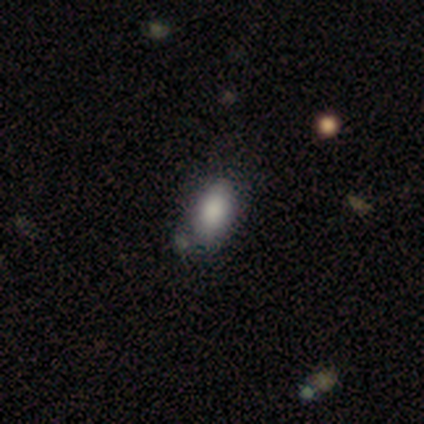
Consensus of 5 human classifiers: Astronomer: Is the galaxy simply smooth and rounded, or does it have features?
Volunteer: smooth — 60% (runner-up: featured or disk, 40%).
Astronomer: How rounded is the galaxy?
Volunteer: in between — 67%.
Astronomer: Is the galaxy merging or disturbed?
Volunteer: minor disturbance — 80%.